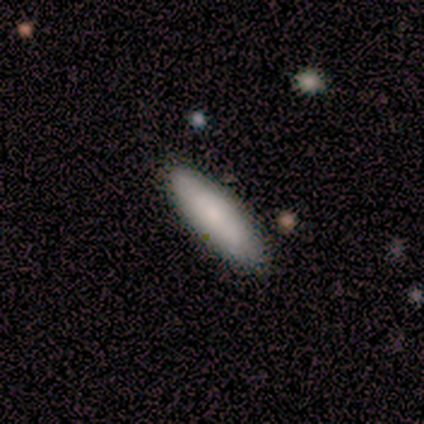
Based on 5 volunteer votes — smooth_or_featured: smooth (p=1.00)
how_rounded: in between (p=0.60) [alt: cigar-shaped p=0.40]
merging: none (p=0.80) [alt: minor disturbance p=0.20]